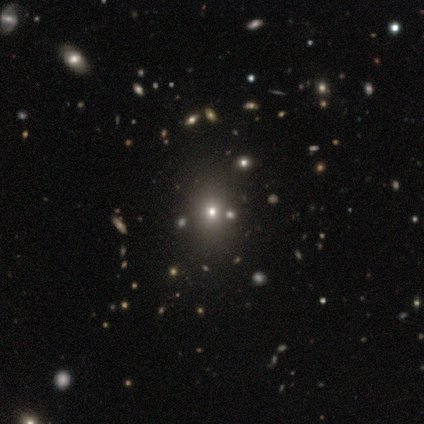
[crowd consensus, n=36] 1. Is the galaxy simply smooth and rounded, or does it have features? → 61% smooth, 33% star or artifact, 6% featured or disk.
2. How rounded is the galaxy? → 59% round, 41% in between, 0% cigar-shaped.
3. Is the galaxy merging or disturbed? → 75% none, 4% major disturbance, 4% merger, 0% minor disturbance.